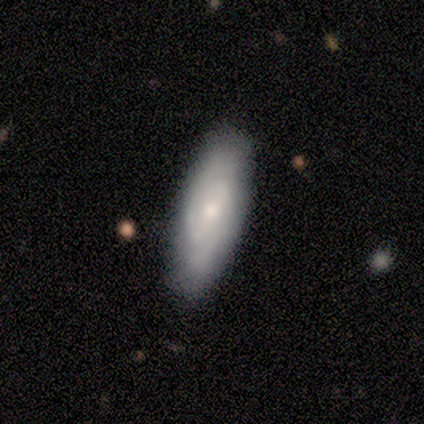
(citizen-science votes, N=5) This appears to be a featured or disk galaxy (60%) with no bar (100%), tight (50%, tied with loose) spiral arms (67%) and a moderate central bulge (67%). Merging: none (100%).